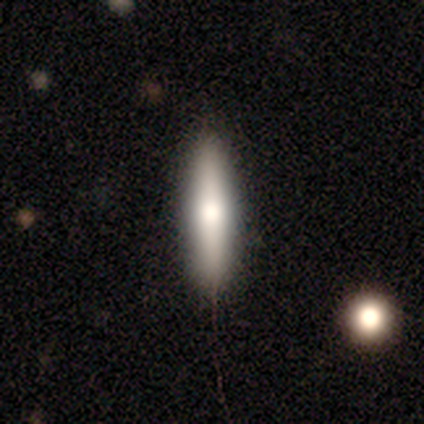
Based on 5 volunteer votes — Smooth or featured: featured or disk — 60% (smooth — 40%)
Edge-on disk: yes — 100%
Edge-on bulge: rounded — 67% (boxy — 33%)
Merging: none — 100%